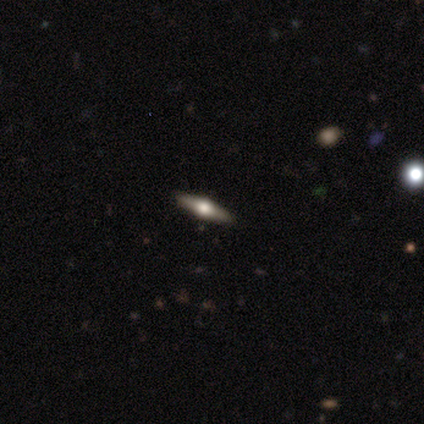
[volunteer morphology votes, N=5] Overall: featured or disk (100%). Edge-on disk: yes (100%). Edge-on bulge: rounded (100%). Merging: none (100%).